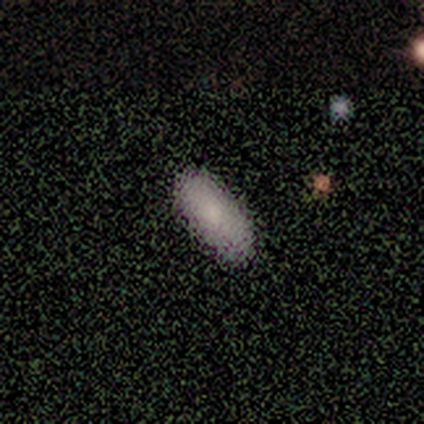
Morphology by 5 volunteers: Smooth or featured? smooth (100%)
How rounded? in between (80%)
Merging? none (100%)